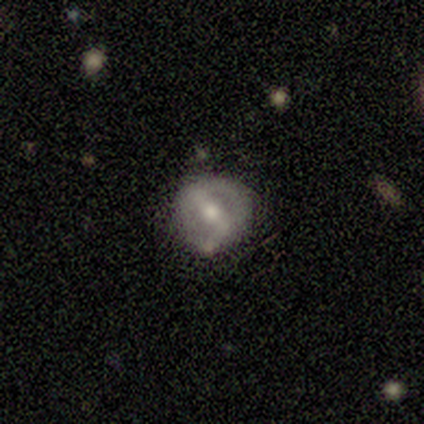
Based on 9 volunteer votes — Volunteers were most divided on "spiral arms": yes: 57%, no: 43%. More confident: edge-on disk — no (100%); spiral arm count — 2 (100%); merging — none (89%); bar — strong (86%); smooth or featured — featured or disk (78%); spiral winding — medium (75%); bulge size — moderate (57%).